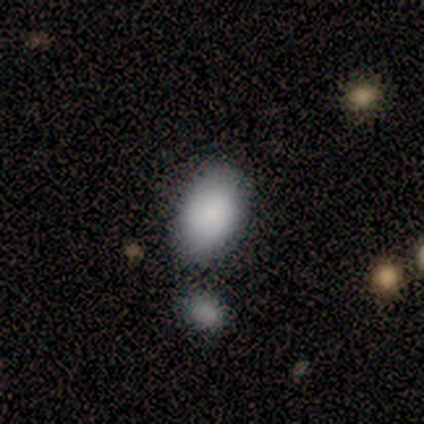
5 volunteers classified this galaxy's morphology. smooth 80%, featured or disk 20%, star or artifact 0%. Down the decision tree: how rounded — in between (100%); merging — none (80%).